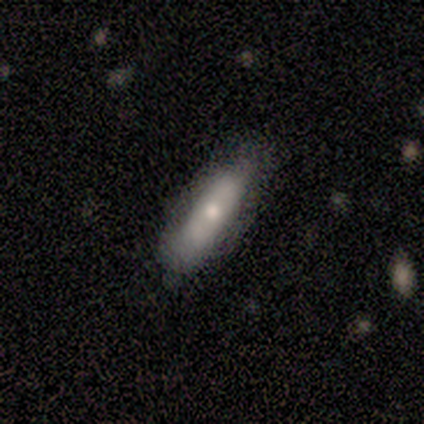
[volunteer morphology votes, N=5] Smooth or featured?
  - smooth: 60% *
  - featured or disk: 40%
  - star or artifact: 0%
How rounded?
  - cigar-shaped: 67% *
  - in between: 33%
  - round: 0%
Merging?
  - none: 80% *
  - minor disturbance: 20%
  - major disturbance: 0%
  - merger: 0%